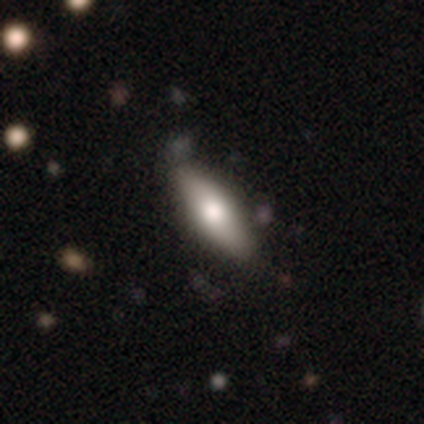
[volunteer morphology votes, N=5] Volunteers were most divided on "how rounded": in between: 75%, cigar-shaped: 25%, round: 0%. More confident: merging — none (100%); smooth or featured — smooth (80%).